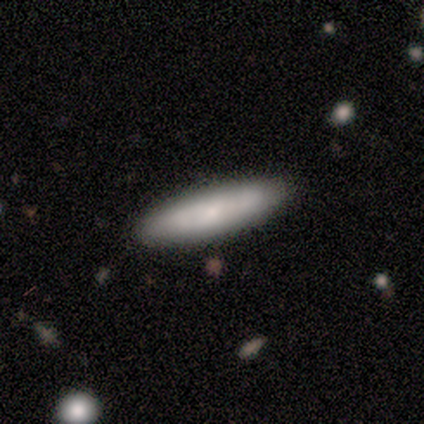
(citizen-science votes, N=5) Smooth or featured? 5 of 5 (100%) said smooth. How rounded? 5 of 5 (100%) said cigar-shaped. Merging? 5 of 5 (100%) said none.